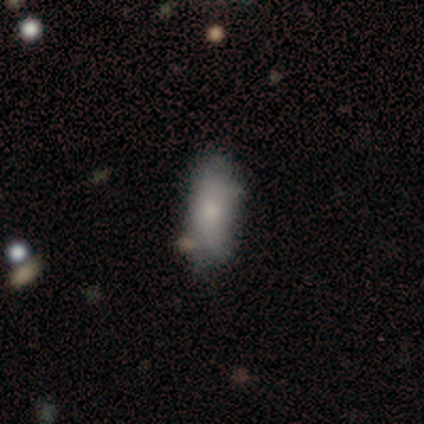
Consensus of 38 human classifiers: Smooth or featured? smooth (74%)
How rounded? in between (82%)
Merging? none (69%)